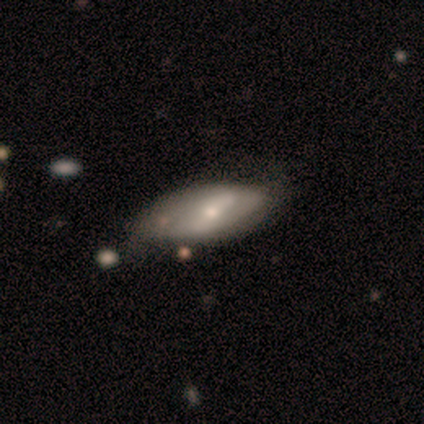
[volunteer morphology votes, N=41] A featured or disk galaxy (56%) with a strong bar (55%), 2 (45%) tight (36%, tied with loose) spiral arms (50%, tied with no) and a small central bulge (73%). Merging: none (45%).